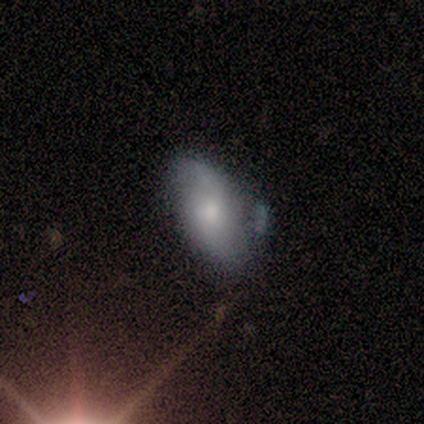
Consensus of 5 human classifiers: A featured or disk galaxy (60%) with no bar (100%), no spiral arms (67%) and a moderate central bulge (67%).

Vote fractions:
- Smooth or featured? featured or disk: 60% / smooth: 20% / star or artifact: 20%
- Edge-on disk? no: 100% / yes: 0%
- Bar? no: 100% / strong: 0% / weak: 0%
- Spiral arms? no: 67% / yes: 33%
- Bulge size? moderate: 67% / small: 33% / dominant: 0% / large: 0% / none: 0%
- Merging? minor disturbance: 75% / none: 25% / major disturbance: 0% / merger: 0%